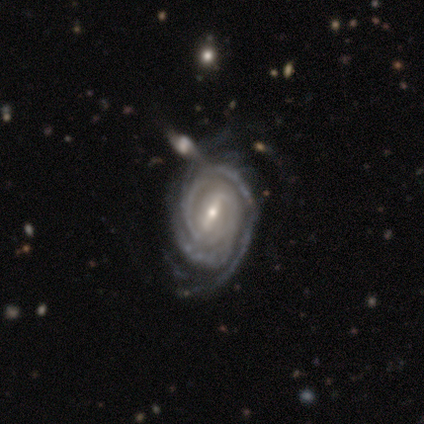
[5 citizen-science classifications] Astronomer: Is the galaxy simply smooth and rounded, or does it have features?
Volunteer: featured or disk — 100%.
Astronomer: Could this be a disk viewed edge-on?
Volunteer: no — 100%.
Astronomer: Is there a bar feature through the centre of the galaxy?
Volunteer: strong — 60%.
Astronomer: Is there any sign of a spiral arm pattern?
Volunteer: yes — 100%.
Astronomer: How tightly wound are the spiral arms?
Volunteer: tight — 60%.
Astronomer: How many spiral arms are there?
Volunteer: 2 — 40% (runner-up: 1, 20%).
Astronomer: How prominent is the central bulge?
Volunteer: small — 60% (runner-up: moderate, 40%).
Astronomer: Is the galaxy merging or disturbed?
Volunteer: none — 80%.